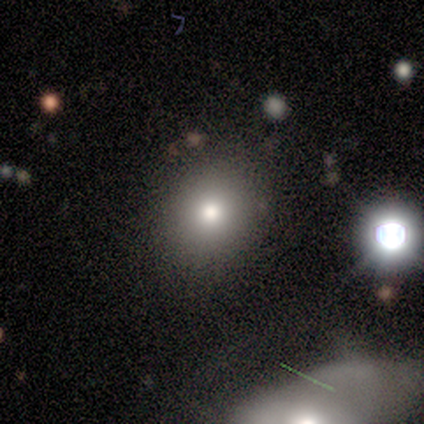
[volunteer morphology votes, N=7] This is marginally a smooth galaxy (43%, tied with star or artifact). How rounded: clearly round (100%). Merging: clearly none (100%).